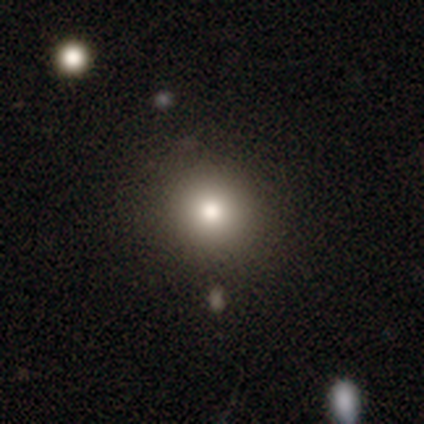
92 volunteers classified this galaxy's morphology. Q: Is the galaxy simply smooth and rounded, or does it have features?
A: smooth — 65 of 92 (71%).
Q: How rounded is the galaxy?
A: round — 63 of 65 (97%).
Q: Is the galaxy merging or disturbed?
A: none — 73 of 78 (94%).